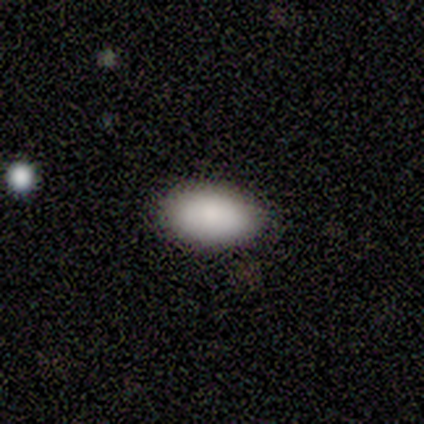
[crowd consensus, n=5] smooth_or_featured: smooth (p=1.00)
how_rounded: in between (p=1.00)
merging: none (p=0.80) [alt: minor disturbance p=0.20]